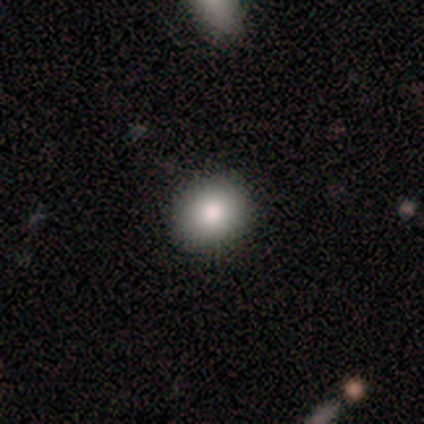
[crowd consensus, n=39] This appears to be a smooth galaxy with no disk features (87%) that is round (74%). Merging: none (68%).